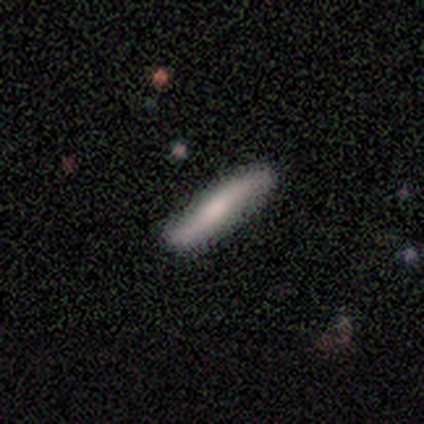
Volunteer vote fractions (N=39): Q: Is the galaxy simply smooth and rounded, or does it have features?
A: smooth — 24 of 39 (62%).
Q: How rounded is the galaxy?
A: cigar-shaped — 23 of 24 (96%).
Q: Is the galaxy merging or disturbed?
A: none — 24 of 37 (65%).